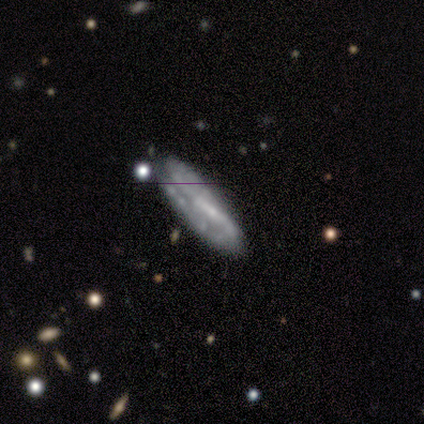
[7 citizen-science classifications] Smooth or featured: featured or disk — 86% (star or artifact — 14%)
Edge-on disk: no — 67% (yes — 33%)
Bar: weak — 50% (tied with no — 50%)
Spiral arms: yes — 75% (no — 25%)
Spiral winding: medium — 67% (tight — 33%)
Spiral arm count: 2 — 100%
Bulge size: small — 50% (tied with none — 50%)
Merging: none — 83% (minor disturbance — 17%)